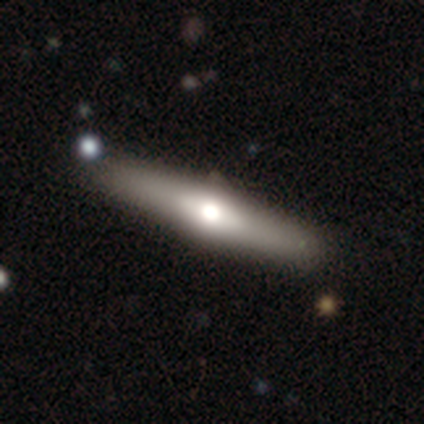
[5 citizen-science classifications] Morphology: type=featured or disk (60%); edge-on=yes (67%); edge-on bulge=rounded (100%); merging=none (100%).